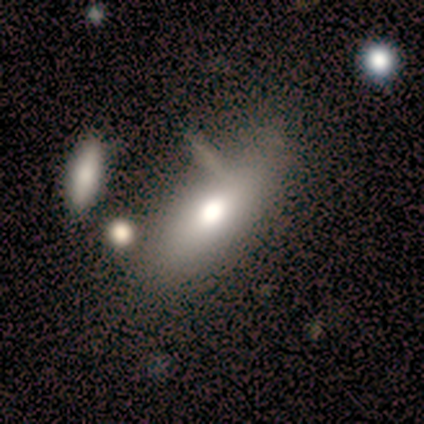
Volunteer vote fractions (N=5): smooth_or_featured: smooth (p=0.60) [alt: featured or disk p=0.40]
how_rounded: cigar-shaped (p=0.67) [alt: in between p=0.33]
merging: none (p=0.60) [alt: minor disturbance p=0.20]